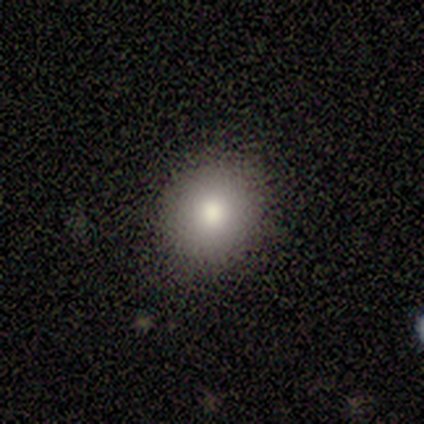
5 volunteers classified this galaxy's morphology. smooth-or-featured: smooth: 80% | star or artifact: 20% | featured or disk: 0%
  how-rounded: round: 75% | in between: 25% | cigar-shaped: 0%
  merging: none: 100% | minor disturbance: 0% | major disturbance: 0% | merger: 0%